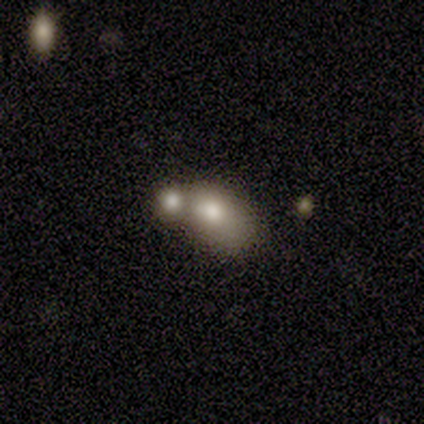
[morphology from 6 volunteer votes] A smooth galaxy with no disk features (83%) that is in between round and cigar-shaped (80%). Merging: minor disturbance (33%, tied with merger).